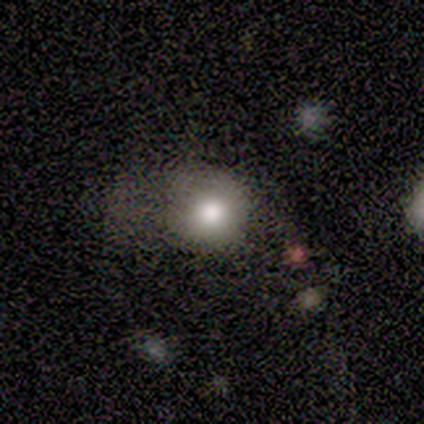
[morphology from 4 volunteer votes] Q: Smooth or featured?
A: smooth (100%)
Q: How rounded?
A: round (100%)
Q: Merging?
A: major disturbance (50%); runner-up: none (25%)